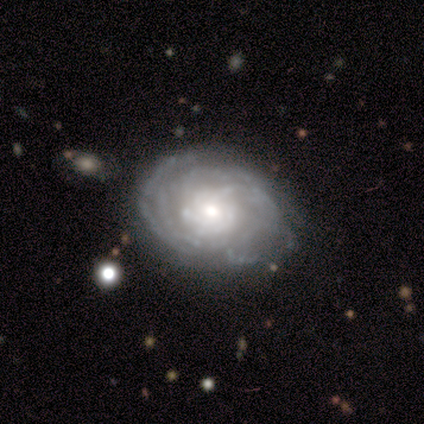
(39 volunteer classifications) Smooth or featured: featured or disk — 85% (star or artifact — 10%)
Edge-on disk: no — 100%
Bar: no — 76% (weak — 18%)
Spiral arms: yes — 94% (no — 6%)
Spiral winding: tight — 77% (medium — 23%)
Spiral arm count: more than 4 — 35% (can't tell — 32%)
Bulge size: moderate — 55% (small — 30%)
Merging: none — 69% (minor disturbance — 26%)